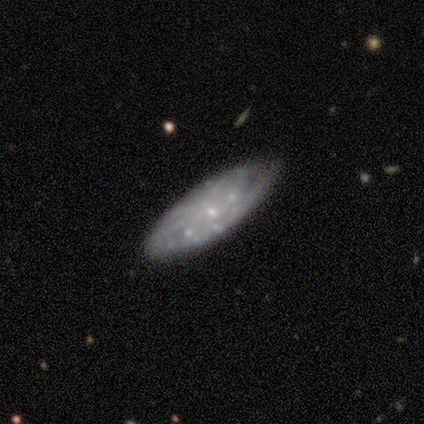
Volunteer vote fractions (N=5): Smooth or featured? featured or disk (60%)
Edge-on disk? no (100%)
Bar? no (100%)
Spiral arms? yes (67%)
Spiral winding? tight (50%, tied with loose)
Spiral arm count? more than 4 (50%, tied with can't tell)
Bulge size? small (100%)
Merging? none (75%)